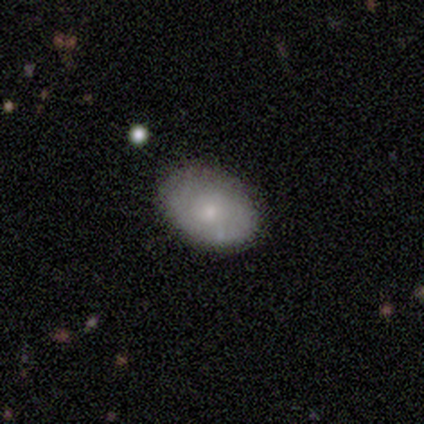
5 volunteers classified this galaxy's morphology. This is likely a smooth galaxy (60%). How rounded: likely in between (67%). Merging: clearly none (100%).